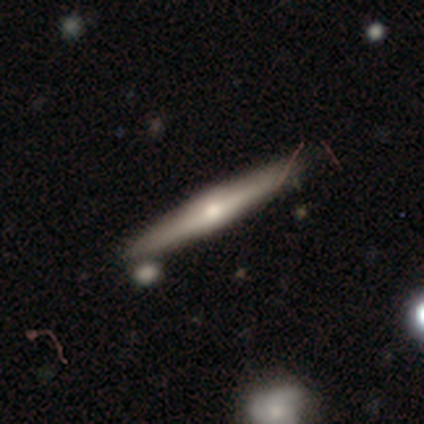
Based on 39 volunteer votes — Overall: featured or disk (64%; smooth 28%). Edge-on disk: yes (96%). Edge-on bulge: rounded (67%). Merging: none (72%).